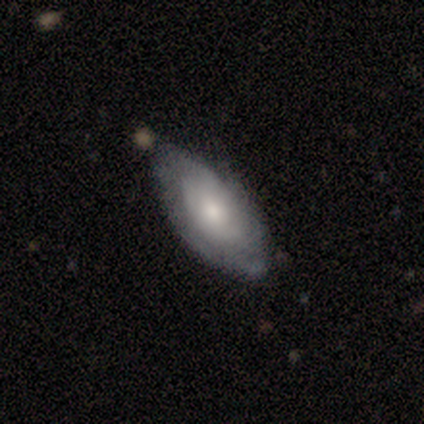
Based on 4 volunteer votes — This appears to be a smooth galaxy with no disk features (50%, tied with featured or disk) that is in between round and cigar-shaped (100%). Merging: none (75%).